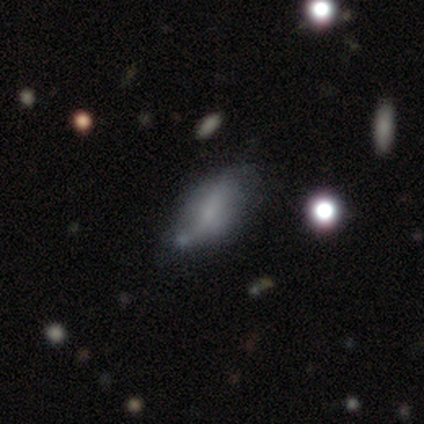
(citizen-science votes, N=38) smooth-or-featured: featured or disk: 50% | smooth: 45% | star or artifact: 5%
  disk-edge-on: no: 100% | yes: 0%
    bar: no: 47% | weak: 37% | strong: 16%
    has-spiral-arms: no: 58% | yes: 42%
    bulge-size: small: 47% (tied) | none: 47% (tied) | moderate: 5% | dominant: 0% | large: 0%
  merging: minor disturbance: 31% | merger: 22% | none: 14% | major disturbance: 11%